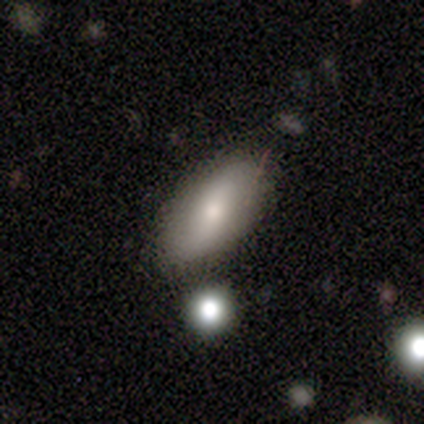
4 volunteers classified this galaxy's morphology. Smooth or featured? smooth (100%)
How rounded? in between (100%)
Merging? none (75%)